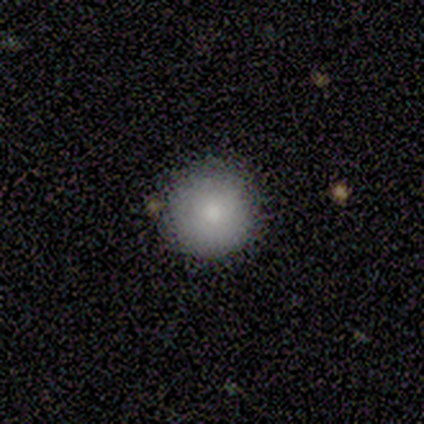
Smooth or featured: smooth — 100%
How rounded: round — 100%
Merging: none — 100%